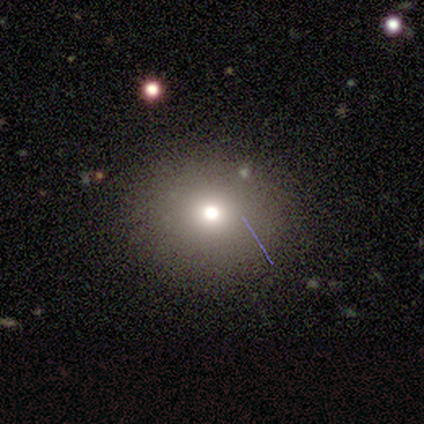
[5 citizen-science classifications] A smooth galaxy with no disk features (40%, tied with star or artifact) that is round (100%).

Vote fractions:
- Smooth or featured? smooth: 40% (tied) / star or artifact: 40% (tied) / featured or disk: 20%
- How rounded? round: 100% / in between: 0% / cigar-shaped: 0%
- Merging? none: 67% / major disturbance: 33% / minor disturbance: 0% / merger: 0%